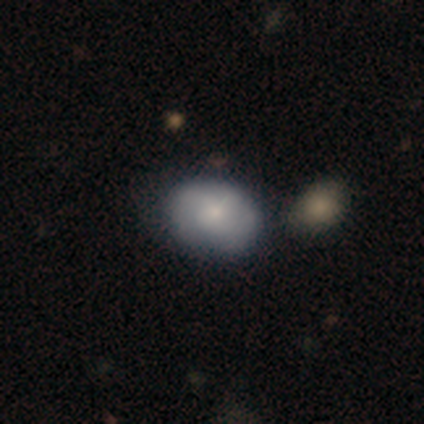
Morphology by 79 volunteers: Volunteers were most divided on "merging": none: 33%, merger: 17%, minor disturbance: 11%, major disturbance: 3%. More confident: smooth or featured — smooth (73%); how rounded — in between (59%).